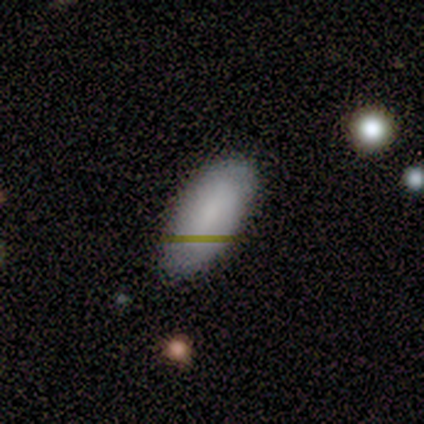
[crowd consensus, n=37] smooth_or_featured: smooth (p=0.81) [alt: featured or disk p=0.11]
how_rounded: in between (p=0.93) [alt: cigar-shaped p=0.07]
merging: none (p=0.56) [alt: minor disturbance p=0.15]